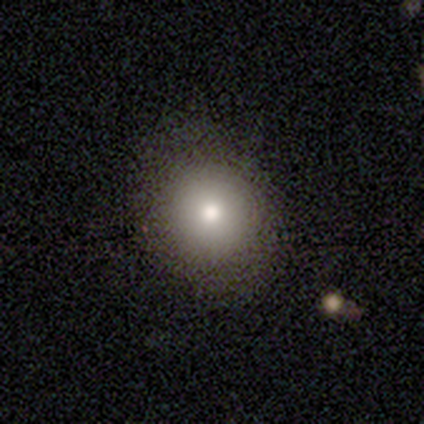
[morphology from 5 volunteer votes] smooth_or_featured: smooth (p=0.80) [alt: featured or disk p=0.20]
how_rounded: round (p=0.50) [tied with: in between p=0.50]
merging: none (p=0.60) [alt: minor disturbance p=0.40]